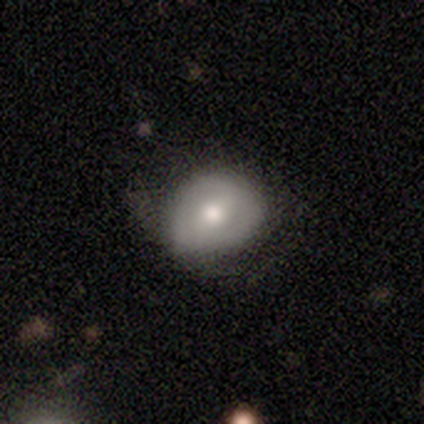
This is clearly a smooth galaxy (80%). How rounded: possibly round (50%, tied with in between). Merging: likely none (60%).